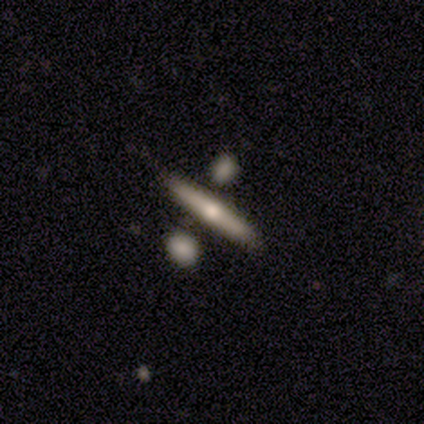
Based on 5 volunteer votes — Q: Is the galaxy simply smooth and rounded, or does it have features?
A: smooth — 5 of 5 (100%).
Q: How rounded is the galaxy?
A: cigar-shaped — 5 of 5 (100%).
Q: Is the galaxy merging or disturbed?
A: none — 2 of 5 (40%).